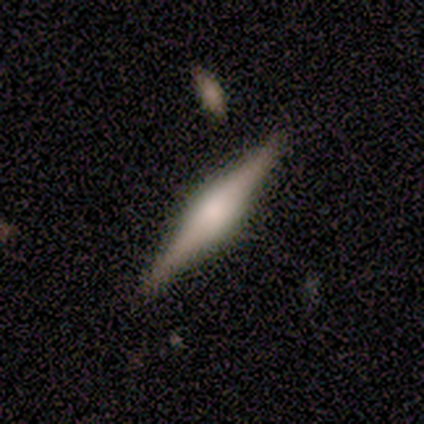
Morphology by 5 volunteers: smooth-or-featured: featured or disk: 60% | smooth: 40% | star or artifact: 0%
  disk-edge-on: yes: 100% | no: 0%
    edge-on-bulge: rounded: 67% | boxy: 33% | none: 0%
  merging: none: 100% | minor disturbance: 0% | major disturbance: 0% | merger: 0%